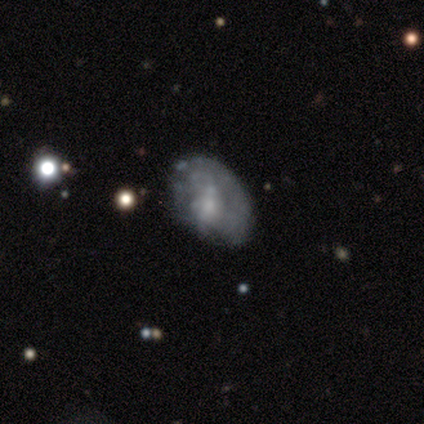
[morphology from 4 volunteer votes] Overall: featured or disk (75%). Edge-on disk: no (100%). Bar: no (67%; weak 33%). Spiral arms: no (100%). Bulge size: moderate (67%; small 33%). Merging: major disturbance (50%; none 25%).